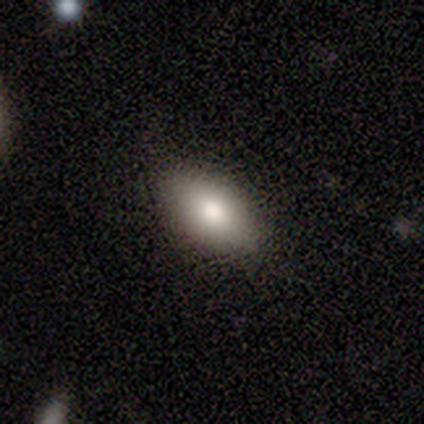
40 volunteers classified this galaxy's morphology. A smooth galaxy with no disk features (78%) that is in between round and cigar-shaped (100%).

Vote fractions:
- Smooth or featured? smooth: 78% / featured or disk: 18% / star or artifact: 5%
- How rounded? in between: 100% / round: 0% / cigar-shaped: 0%
- Merging? none: 92% / minor disturbance: 8% / major disturbance: 0% / merger: 0%